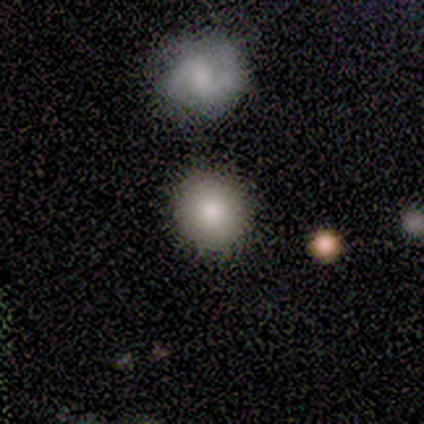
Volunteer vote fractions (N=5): smooth_or_featured: smooth (p=0.80) [alt: featured or disk p=0.20]
how_rounded: round (p=1.00)
merging: none (p=1.00)